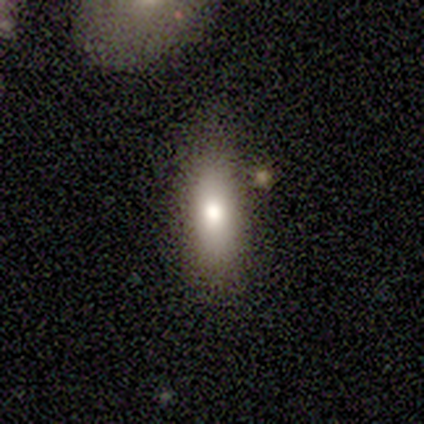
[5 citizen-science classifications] Overall: smooth (80%). How rounded: in between (75%). Merging: none (80%).